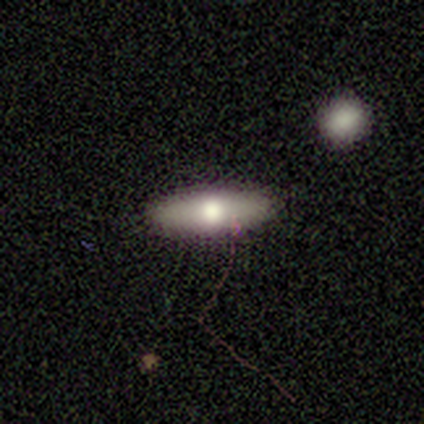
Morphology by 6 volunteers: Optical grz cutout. It shows a smooth galaxy with no disk features (67%) that is cigar-shaped (75%). Merging: none (100%).